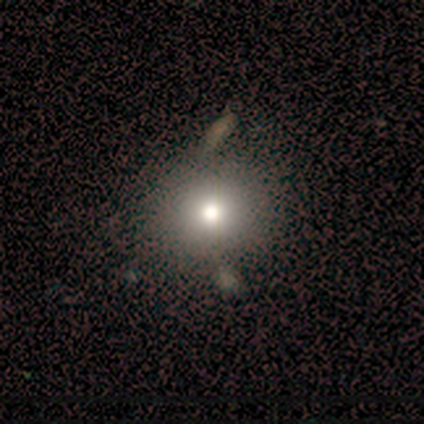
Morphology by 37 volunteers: Q: Smooth or featured?
A: smooth (73%); runner-up: featured or disk (16%)
Q: How rounded?
A: round (93%); runner-up: in between (7%)
Q: Merging?
A: none (18%); tied with: merger (18%)